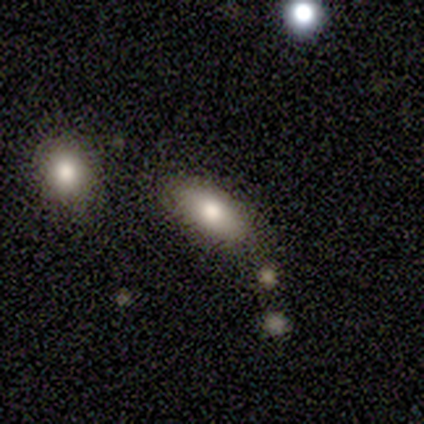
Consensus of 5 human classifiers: smooth_or_featured: smooth (p=0.80) [alt: featured or disk p=0.20]
how_rounded: in between (p=0.75) [alt: cigar-shaped p=0.25]
merging: none (p=0.80) [alt: merger p=0.20]